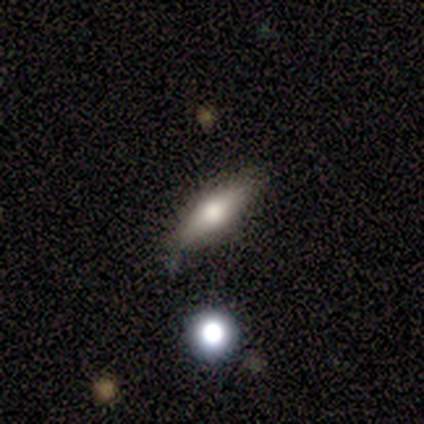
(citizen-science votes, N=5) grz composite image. It shows a featured or disk galaxy (80%) viewed edge-on (75%) with a rounded central bulge (100%). Merging: none (80%).